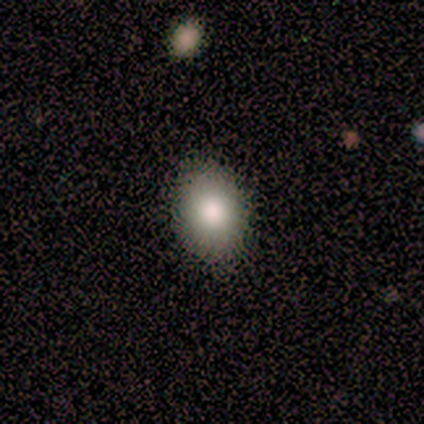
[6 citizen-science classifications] Smooth or featured? smooth (100%)
How rounded? in between (67%)
Merging? none (100%)